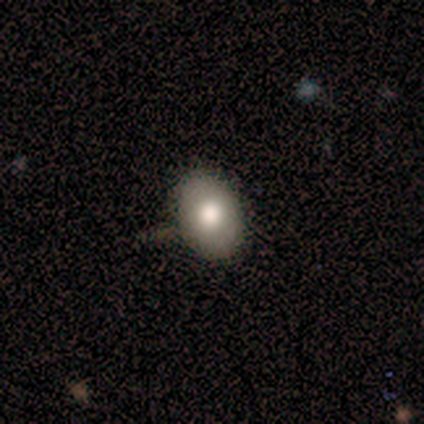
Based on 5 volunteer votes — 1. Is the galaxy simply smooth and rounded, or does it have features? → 80% smooth, 20% star or artifact, 0% featured or disk.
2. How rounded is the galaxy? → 50% round (tied), 50% in between (tied), 0% cigar-shaped.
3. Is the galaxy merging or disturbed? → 75% none, 25% minor disturbance, 0% major disturbance, 0% merger.